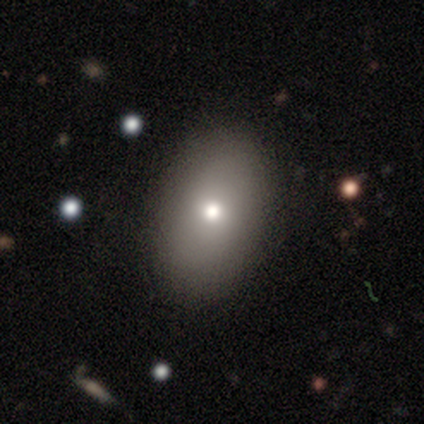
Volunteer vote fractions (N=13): A smooth galaxy with no disk features (69%) that is in between round and cigar-shaped (100%). Merging: none (92%).